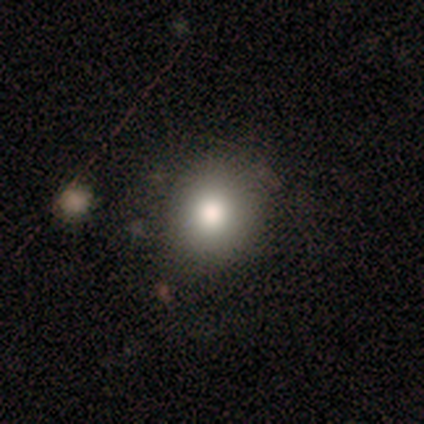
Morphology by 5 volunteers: Smooth or featured? 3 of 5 (60%) said smooth. How rounded? 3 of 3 (100%) said round. Merging? 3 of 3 (100%) said none.